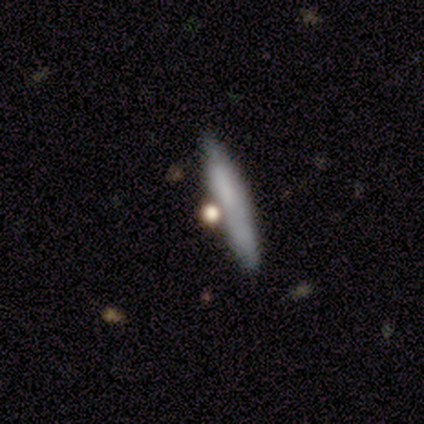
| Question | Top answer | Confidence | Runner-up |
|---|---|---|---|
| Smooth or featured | smooth | 68% | featured or disk (27%) |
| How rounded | cigar-shaped | 79% | round (11%) |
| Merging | none | 79% | merger (10%) |